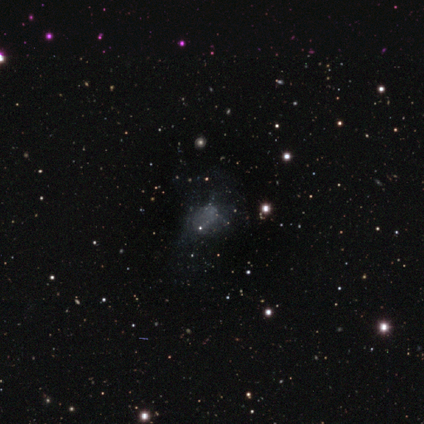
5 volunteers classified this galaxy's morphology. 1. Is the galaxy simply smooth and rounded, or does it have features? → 60% featured or disk, 40% star or artifact, 0% smooth.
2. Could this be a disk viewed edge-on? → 100% no, 0% yes.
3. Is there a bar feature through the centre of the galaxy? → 100% no, 0% strong, 0% weak.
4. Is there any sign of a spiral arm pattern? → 100% no, 0% yes.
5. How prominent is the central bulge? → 100% none, 0% dominant, 0% large, 0% moderate, 0% small.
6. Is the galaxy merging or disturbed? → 100% none, 0% minor disturbance, 0% major disturbance, 0% merger.